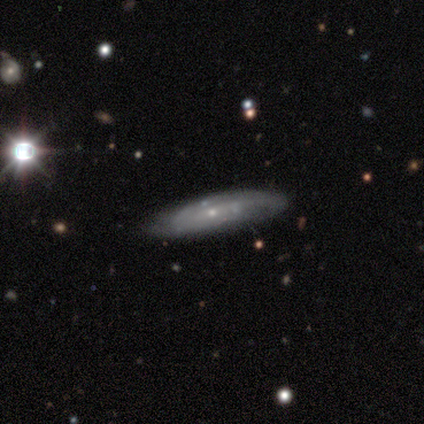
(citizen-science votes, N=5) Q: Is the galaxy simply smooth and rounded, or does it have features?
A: featured or disk — 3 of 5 (60%).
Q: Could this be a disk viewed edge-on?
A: no — 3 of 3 (100%).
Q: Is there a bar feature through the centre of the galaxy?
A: no — 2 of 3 (67%).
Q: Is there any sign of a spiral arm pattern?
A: yes — 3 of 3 (100%).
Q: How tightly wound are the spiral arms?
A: tight — 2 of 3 (67%).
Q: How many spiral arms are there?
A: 2 — 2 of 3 (67%).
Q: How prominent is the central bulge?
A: small — 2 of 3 (67%).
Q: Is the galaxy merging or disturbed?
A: none — 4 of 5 (80%).